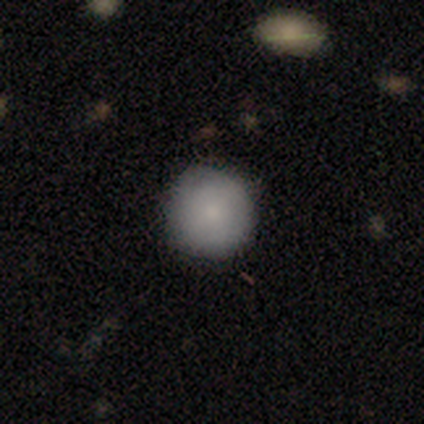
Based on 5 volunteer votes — This is clearly a smooth galaxy (100%). How rounded: clearly round (100%). Merging: clearly none (80%).